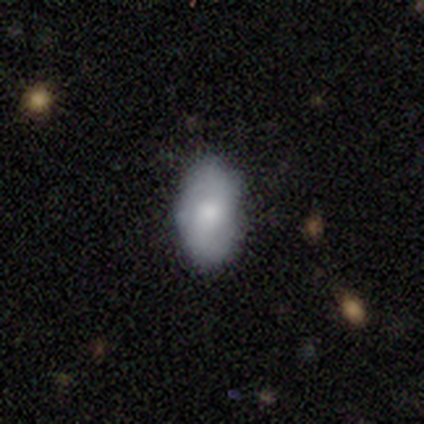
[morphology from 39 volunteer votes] Smooth or featured? smooth (74%)
How rounded? in between (100%)
Merging? none (79%)